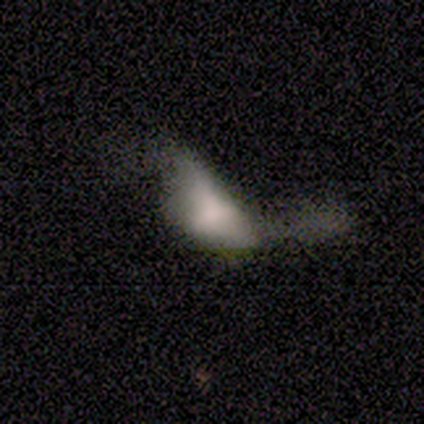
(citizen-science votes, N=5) This is likely a smooth galaxy (60%). How rounded: likely cigar-shaped (67%). Merging: likely major disturbance (60%).